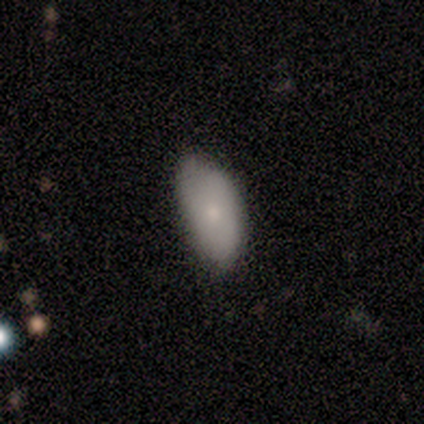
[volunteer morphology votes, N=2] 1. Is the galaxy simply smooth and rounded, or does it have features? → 100% smooth, 0% featured or disk, 0% star or artifact.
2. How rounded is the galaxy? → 100% in between, 0% round, 0% cigar-shaped.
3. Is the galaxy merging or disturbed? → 50% none (tied), 50% minor disturbance (tied), 0% major disturbance, 0% merger.